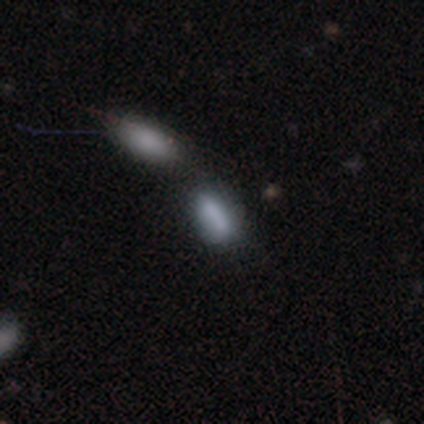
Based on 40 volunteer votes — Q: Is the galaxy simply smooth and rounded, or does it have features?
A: smooth — 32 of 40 (80%).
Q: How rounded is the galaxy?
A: in between — 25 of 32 (78%).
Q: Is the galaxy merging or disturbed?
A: none — 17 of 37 (46%).